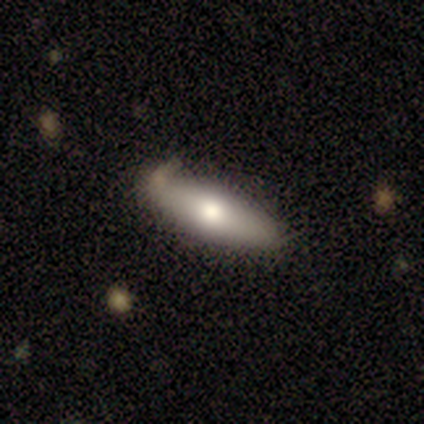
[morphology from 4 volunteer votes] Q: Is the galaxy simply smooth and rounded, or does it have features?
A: smooth — 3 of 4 (75%).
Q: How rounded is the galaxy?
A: in between — 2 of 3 (67%).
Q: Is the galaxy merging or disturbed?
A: none — 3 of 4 (75%).